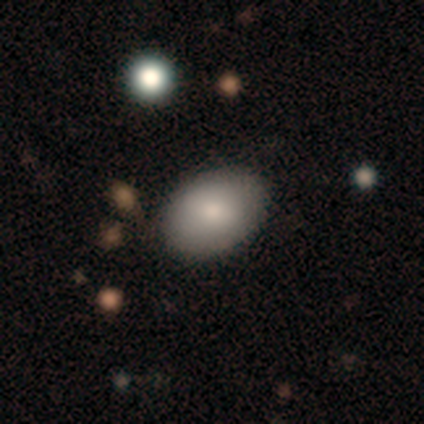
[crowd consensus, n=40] smooth-or-featured: smooth: 75% | featured or disk: 15% | star or artifact: 10%
  how-rounded: in between: 83% | round: 17% | cigar-shaped: 0%
  merging: none: 89% | minor disturbance: 8% | major disturbance: 3% | merger: 0%